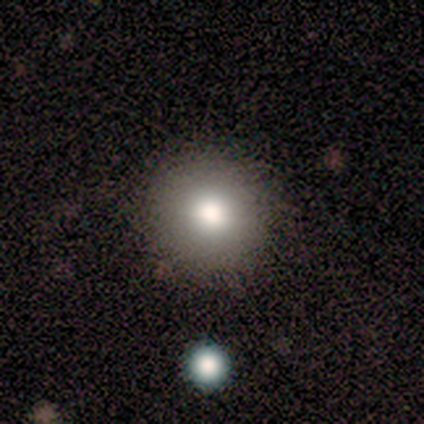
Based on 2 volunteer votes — Morphology: type=smooth (100%); roundness=round (100%); merging=none (100%).